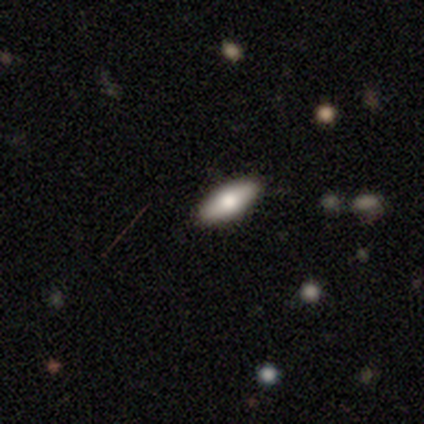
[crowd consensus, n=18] Morphology: type=smooth (78%); roundness=in between (71%); merging=none (94%).